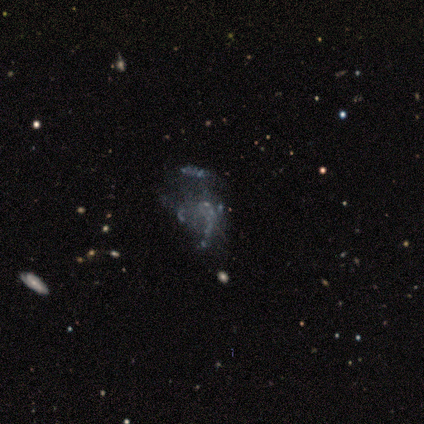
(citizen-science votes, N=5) Smooth or featured? featured or disk (80%)
Edge-on disk? no (100%)
Bar? no (100%)
Spiral arms? no (100%)
Bulge size? none (100%)
Merging? minor disturbance (50%)